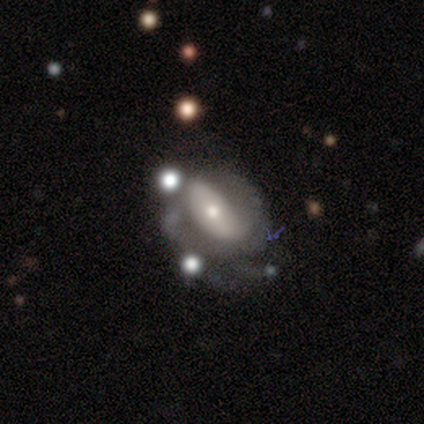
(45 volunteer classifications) Overall: featured or disk (73%). Edge-on disk: no (94%). Bar: no (52%; weak 32%). Spiral arms: yes (74%). Spiral arm count: 2 (43%; can't tell 39%). Spiral winding: medium (48%; tight 26%). Bulge size: small (58%; moderate 29%). Merging: none (39%; minor disturbance 22%).